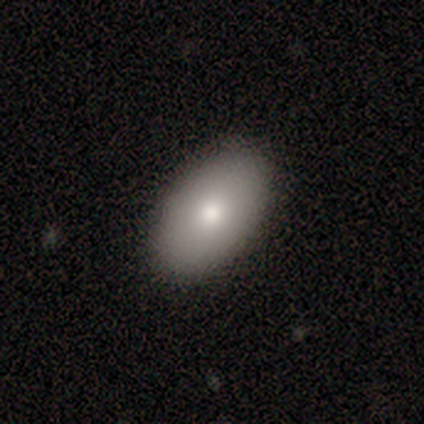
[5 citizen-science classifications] Q: Smooth or featured?
A: smooth (100%)
Q: How rounded?
A: in between (100%)
Q: Merging?
A: none (100%)